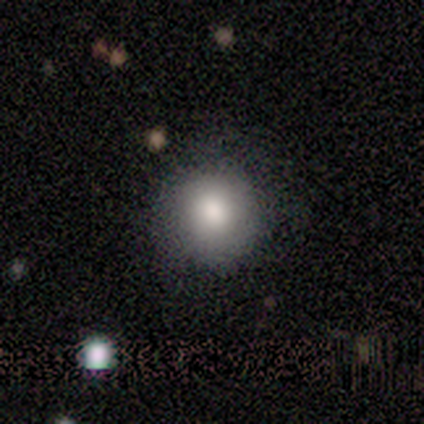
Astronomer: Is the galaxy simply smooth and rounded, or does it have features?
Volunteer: smooth — 100%.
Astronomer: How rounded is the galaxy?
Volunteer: round — 100%.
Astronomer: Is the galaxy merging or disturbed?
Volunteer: none — 67%.